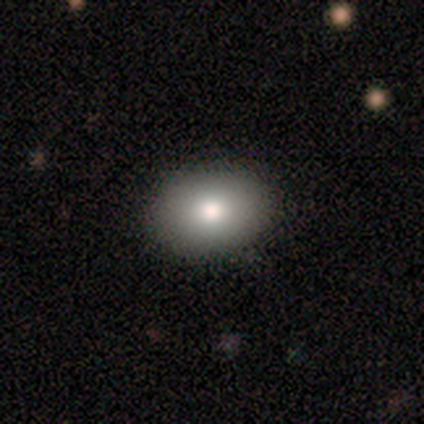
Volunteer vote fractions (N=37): Smooth or featured? smooth (78%)
How rounded? in between (76%)
Merging? none (100%)